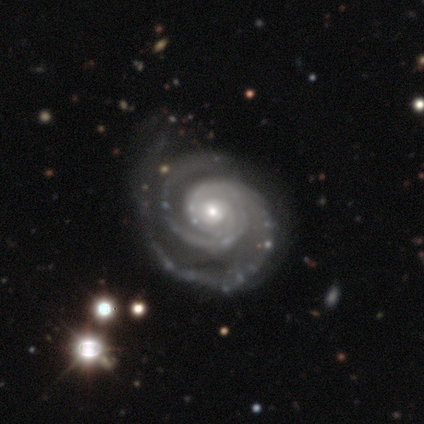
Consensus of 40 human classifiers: Smooth or featured: featured or disk — 98% (smooth — 2%)
Edge-on disk: no — 97% (yes — 3%)
Bar: no — 71% (weak — 24%)
Spiral arms: yes — 100%
Spiral winding: tight — 79% (medium — 16%)
Spiral arm count: 2 — 89% (3 — 5%)
Bulge size: moderate — 50% (small — 45%)
Merging: none — 50% (minor disturbance — 15%)